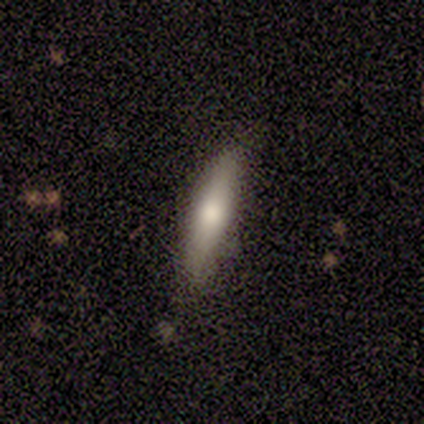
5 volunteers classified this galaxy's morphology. Smooth or featured: smooth — 80% (featured or disk — 20%)
How rounded: cigar-shaped — 75% (in between — 25%)
Merging: none — 60% (minor disturbance — 40%)